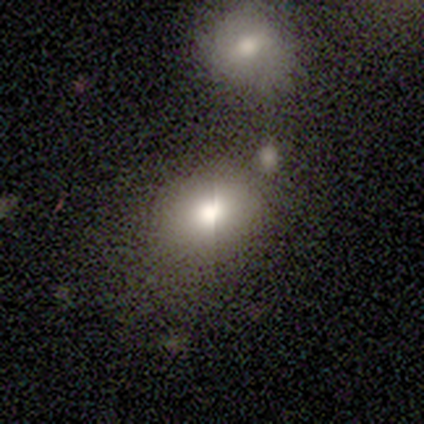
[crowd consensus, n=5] Smooth or featured?
  - smooth: 80% *
  - star or artifact: 20%
  - featured or disk: 0%
How rounded?
  - round: 75% *
  - in between: 25%
  - cigar-shaped: 0%
Merging?
  - minor disturbance: 50% *
  - none: 25%
  - major disturbance: 25%
  - merger: 0%